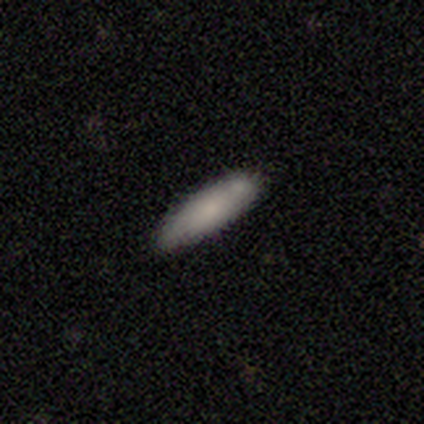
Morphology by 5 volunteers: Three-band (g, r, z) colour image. It shows a smooth galaxy with no disk features (100%) that is in between round and cigar-shaped (60%). Merging: none (80%).